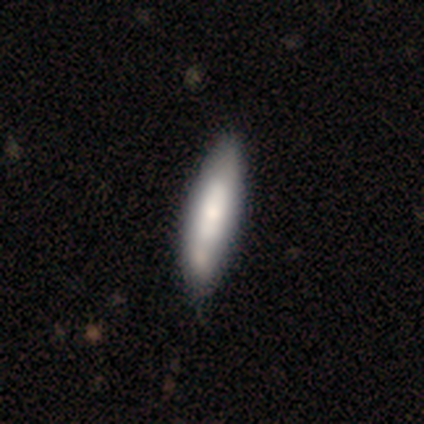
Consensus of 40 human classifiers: smooth_or_featured: smooth (p=0.68) [alt: featured or disk p=0.30]
how_rounded: cigar-shaped (p=0.67) [alt: in between p=0.33]
merging: none (p=0.51) [alt: minor disturbance p=0.13]